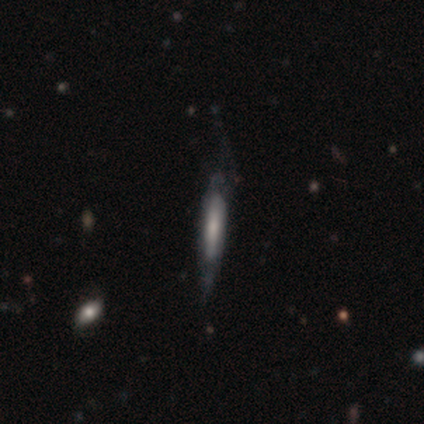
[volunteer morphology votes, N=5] Volunteers were most divided on "bar" (2-way tie): weak: 50%, no: 50%, strong: 0%; "spiral winding" (2-way tie): tight: 50%, medium: 50%, loose: 0%; "merging" (2-way tie): none: 40%, minor disturbance: 40%, major disturbance: 20%, merger: 0%. More confident: spiral arms — yes (100%); spiral arm count — can't tell (100%); bulge size — small (100%); edge-on disk — no (67%); smooth or featured — featured or disk (60%).